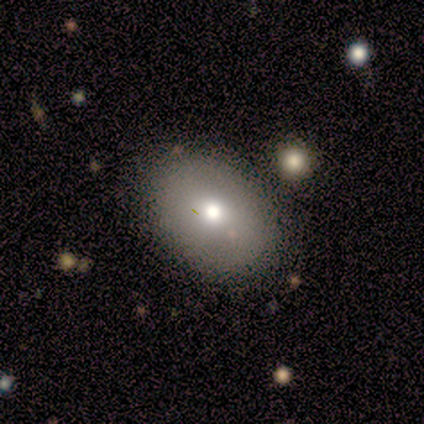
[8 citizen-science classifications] A smooth galaxy with no disk features (75%) that is in between round and cigar-shaped (100%).

Vote fractions:
- Smooth or featured? smooth: 75% / featured or disk: 12% / star or artifact: 12%
- How rounded? in between: 100% / round: 0% / cigar-shaped: 0%
- Merging? none: 100% / minor disturbance: 0% / major disturbance: 0% / merger: 0%